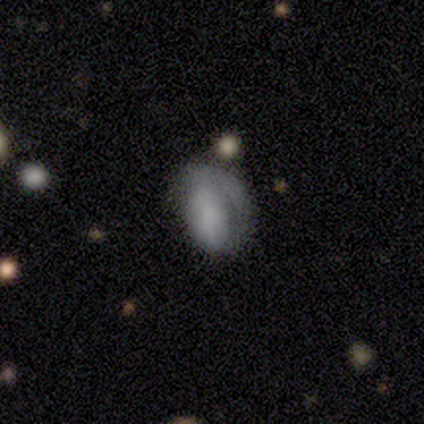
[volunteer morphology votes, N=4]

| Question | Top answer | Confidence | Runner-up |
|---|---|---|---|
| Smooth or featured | smooth | 50% | featured or disk (25%) |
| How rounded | in between | 100% | — |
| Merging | minor disturbance | 100% | — |